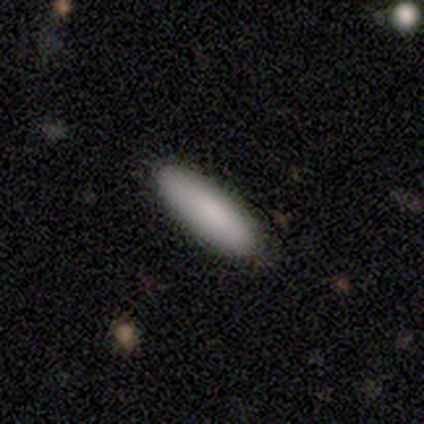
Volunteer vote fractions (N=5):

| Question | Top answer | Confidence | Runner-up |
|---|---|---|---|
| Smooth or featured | smooth | 100% | — |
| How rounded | in between | 80% | cigar-shaped (20%) |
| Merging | none | 80% | minor disturbance (20%) |